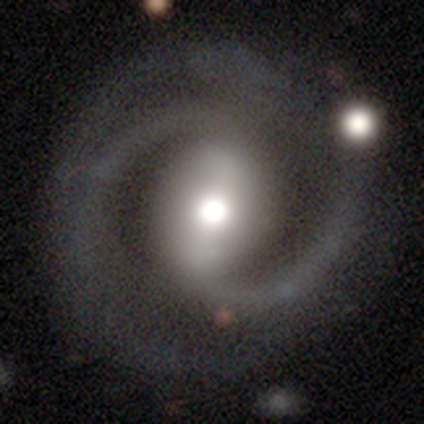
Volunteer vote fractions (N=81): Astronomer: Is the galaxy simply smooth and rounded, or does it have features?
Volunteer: featured or disk — 85%.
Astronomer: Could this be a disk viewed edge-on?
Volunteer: no — 94%.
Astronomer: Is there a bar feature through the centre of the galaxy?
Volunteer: strong — 66%.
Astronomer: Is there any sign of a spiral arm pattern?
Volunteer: yes — 97%.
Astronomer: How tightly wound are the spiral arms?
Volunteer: tight — 48% (runner-up: medium, 43%).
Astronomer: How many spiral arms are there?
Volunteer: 2 — 81%.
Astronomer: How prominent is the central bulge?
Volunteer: moderate — 48% (runner-up: large, 38%).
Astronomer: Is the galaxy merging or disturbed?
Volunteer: none — 61%.